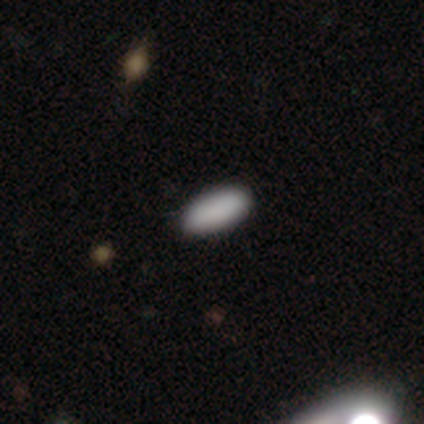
smooth_or_featured: smooth (p=1.00)
how_rounded: in between (p=1.00)
merging: none (p=0.92) [alt: minor disturbance p=0.08]